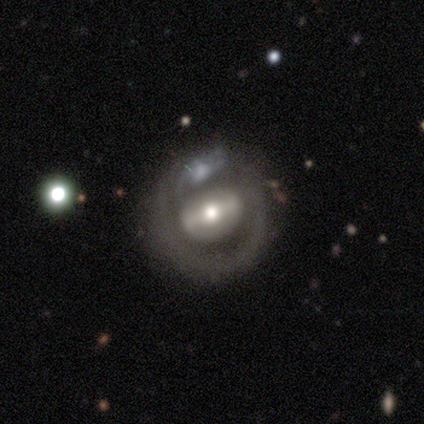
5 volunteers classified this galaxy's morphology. Volunteers were most divided on "bar" (2-way tie): strong: 50%, weak: 50%, no: 0%. Remaining: edge-on disk — no (100%); spiral arms — no (100%); smooth or featured — featured or disk (80%); bulge size — moderate (75%); merging — merger (40%).